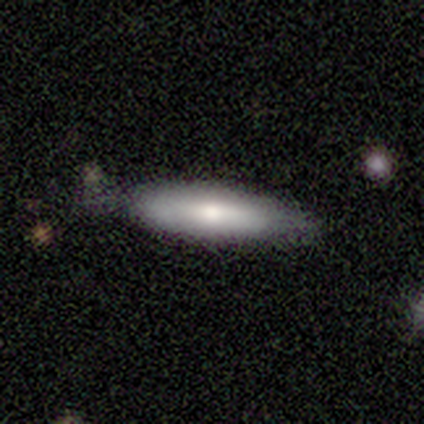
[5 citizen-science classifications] This appears to be a smooth galaxy with no disk features (80%) that is cigar-shaped (75%). Merging: none (100%).